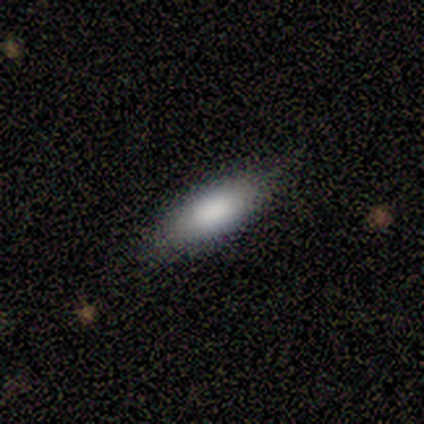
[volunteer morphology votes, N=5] Volunteers were most divided on "merging" (2-way tie): none: 50%, minor disturbance: 50%, major disturbance: 0%, merger: 0%. More confident: how rounded — in between (100%); smooth or featured — smooth (80%).